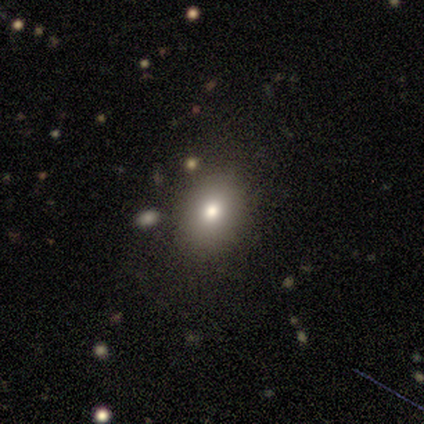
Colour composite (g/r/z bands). It shows a smooth galaxy with no disk features (100%) that is in between round and cigar-shaped (80%). Merging: none (70%).